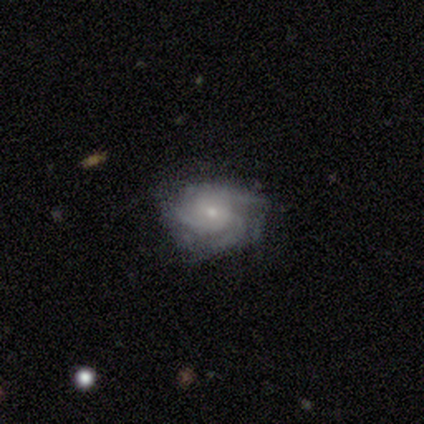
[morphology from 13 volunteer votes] Smooth or featured? 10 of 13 (77%) said featured or disk. Edge-on disk? 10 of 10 (100%) said no. Bar? 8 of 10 (80%) said no. Spiral arms? 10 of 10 (100%) said yes. Spiral winding? 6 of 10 (60%) said tight. Spiral arm count? 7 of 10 (70%) said 3. Bulge size? 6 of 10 (60%) said small. Merging? 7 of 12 (58%) said none.